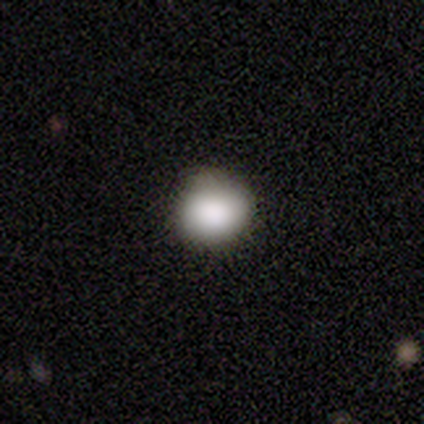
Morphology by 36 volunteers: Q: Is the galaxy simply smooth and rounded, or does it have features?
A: smooth — 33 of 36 (92%).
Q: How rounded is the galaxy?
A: round — 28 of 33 (85%).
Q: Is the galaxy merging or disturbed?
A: none — 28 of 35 (80%).